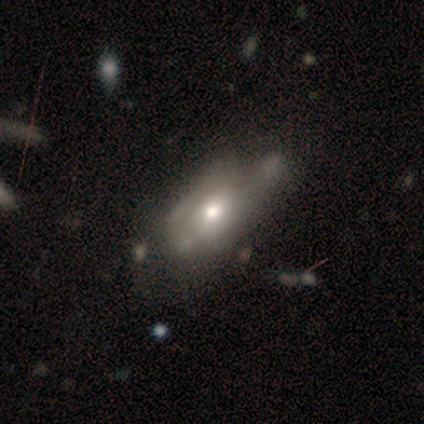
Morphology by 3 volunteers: Smooth or featured? 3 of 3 (100%) said featured or disk. Edge-on disk? 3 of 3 (100%) said no. Bar? 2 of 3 (67%) said no. Spiral arms? 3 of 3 (100%) said no. Bulge size? 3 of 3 (100%) said moderate. Merging? 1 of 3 (33%, tied with minor disturbance and major disturbance) said none.